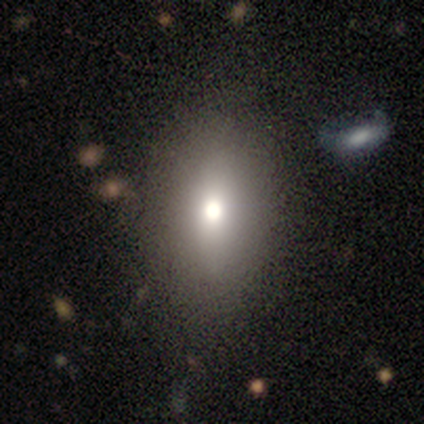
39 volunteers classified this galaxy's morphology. smooth_or_featured: smooth (p=0.67) [alt: featured or disk p=0.31]
how_rounded: in between (p=0.81) [alt: round p=0.15]
merging: none (p=0.50) [alt: minor disturbance p=0.11]